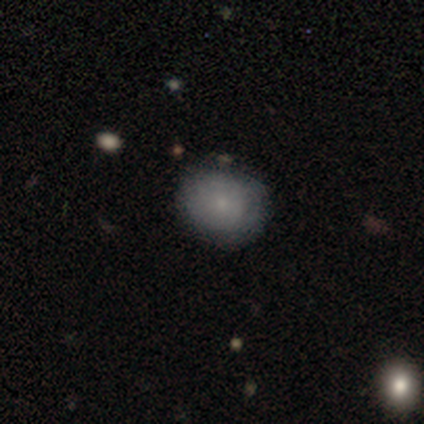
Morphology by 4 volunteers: Smooth or featured? smooth (75%)
How rounded? round (100%)
Merging? none (100%)